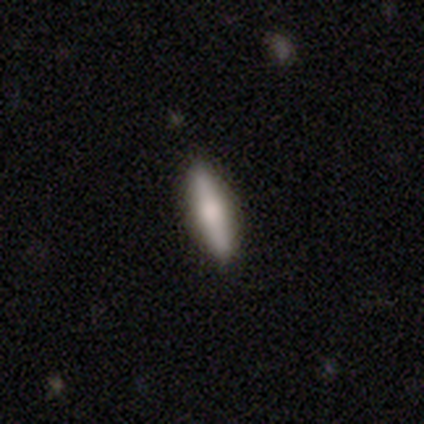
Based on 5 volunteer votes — Overall: smooth (80%). How rounded: cigar-shaped (100%). Merging: none (100%).